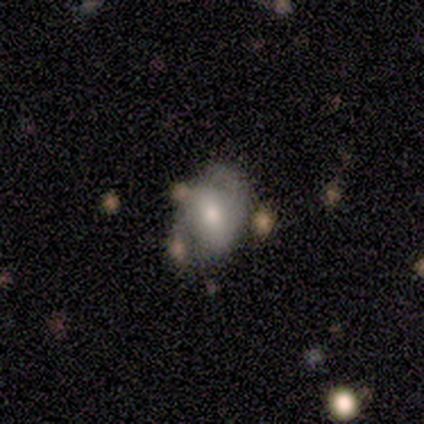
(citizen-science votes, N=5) Smooth or featured?
  - featured or disk: 100% *
  - smooth: 0%
  - star or artifact: 0%
Edge-on disk?
  - no: 100% *
  - yes: 0%
Bar?
  - no: 60% *
  - strong: 20%
  - weak: 20%
Spiral arms?
  - yes: 100% *
  - no: 0%
Spiral winding?
  - tight: 40% * (tied)
  - loose: 40% * (tied)
  - medium: 20%
Spiral arm count?
  - 2: 80% *
  - can't tell: 20%
  - 1: 0%
  - 3: 0%
  - 4: 0%
  - more than 4: 0%
Bulge size?
  - moderate: 60% *
  - small: 40%
  - dominant: 0%
  - large: 0%
  - none: 0%
Merging?
  - none: 60% *
  - minor disturbance: 20%
  - merger: 20%
  - major disturbance: 0%